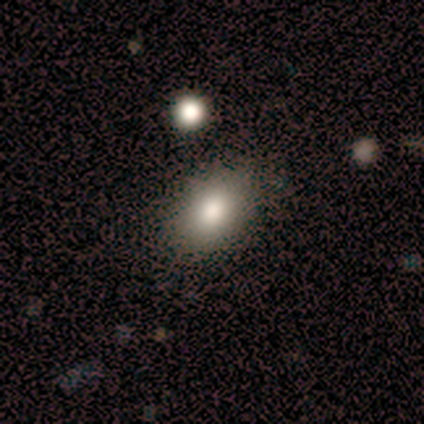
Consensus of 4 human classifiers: A smooth galaxy with no disk features (100%) that is round (50%, tied with in between).

Vote fractions:
- Smooth or featured? smooth: 100% / featured or disk: 0% / star or artifact: 0%
- How rounded? round: 50% (tied) / in between: 50% (tied) / cigar-shaped: 0%
- Merging? none: 100% / minor disturbance: 0% / major disturbance: 0% / merger: 0%